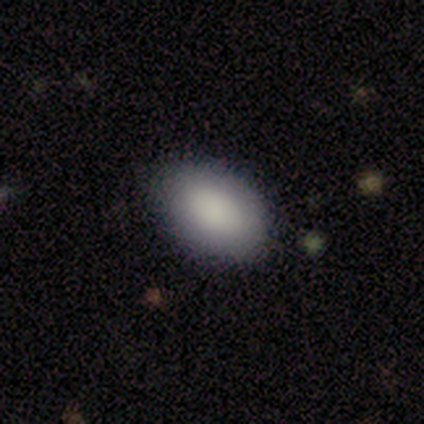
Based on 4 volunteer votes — Overall: smooth (75%). How rounded: in between (67%; round 33%). Merging: none (100%).